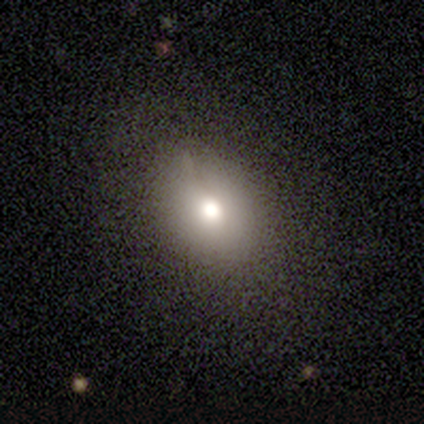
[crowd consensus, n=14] Volunteers were most divided on "how rounded": in between: 69%, round: 31%, cigar-shaped: 0%. More confident: smooth or featured — smooth (93%); merging — none (86%).